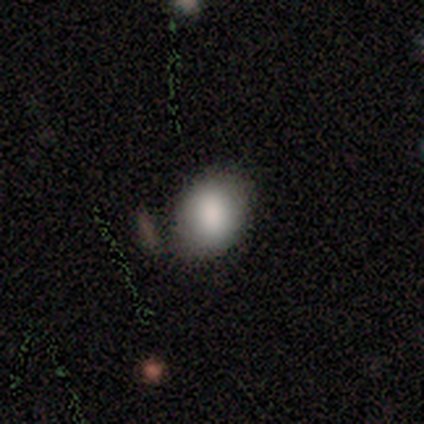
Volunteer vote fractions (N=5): Morphology: type=smooth (60%); roundness=in between (67%); merging=none (100%).